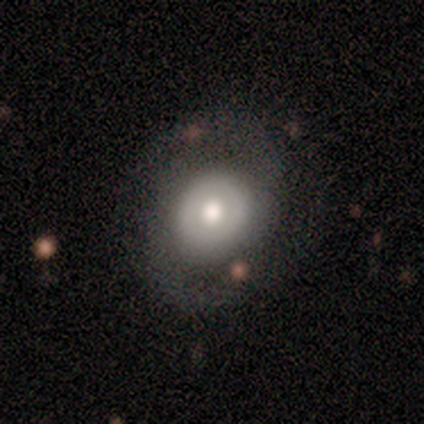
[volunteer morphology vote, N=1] smooth-or-featured: featured or disk: 100% | smooth: 0% | star or artifact: 0%
  disk-edge-on: no: 100% | yes: 0%
    bar: weak: 100% | strong: 0% | no: 0%
    has-spiral-arms: yes: 100% | no: 0%
      spiral-winding: medium: 100% | tight: 0% | loose: 0%
      spiral-arm-count: 2: 100% | 1: 0% | 3: 0% | 4: 0% | more than 4: 0% | can't tell: 0%
    bulge-size: small: 100% | dominant: 0% | large: 0% | moderate: 0% | none: 0%
  merging: none: 100% | minor disturbance: 0% | major disturbance: 0% | merger: 0%